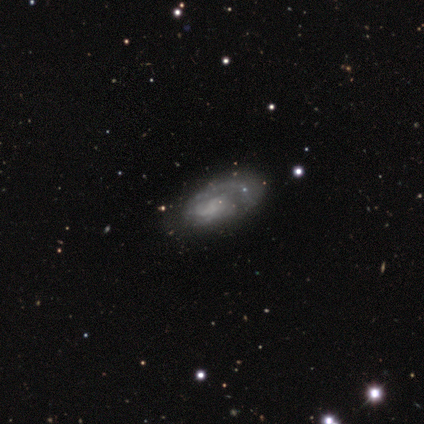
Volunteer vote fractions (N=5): Q: Smooth or featured?
A: featured or disk (80%); runner-up: smooth (20%)
Q: Edge-on disk?
A: no (100%)
Q: Bar?
A: no (100%)
Q: Spiral arms?
A: yes (75%); runner-up: no (25%)
Q: Spiral winding?
A: tight (33%); tied with: medium (33%); loose (33%)
Q: Spiral arm count?
A: 1 (33%); tied with: 2 (33%); can't tell (33%)
Q: Bulge size?
A: none (75%); runner-up: small (25%)
Q: Merging?
A: none (40%); runner-up: minor disturbance (20%)